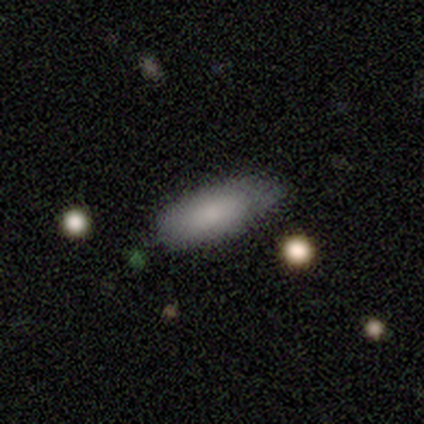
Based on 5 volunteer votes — Morphology: type=smooth (100%); roundness=in between (100%); merging=none (80%).